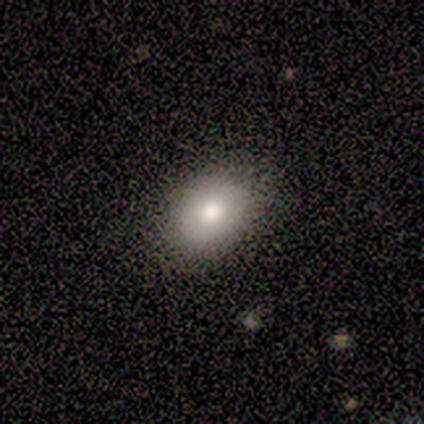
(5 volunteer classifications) smooth 60%, featured or disk 40%, star or artifact 0%. Down the decision tree: how rounded — in between (100%); merging — none (100%).